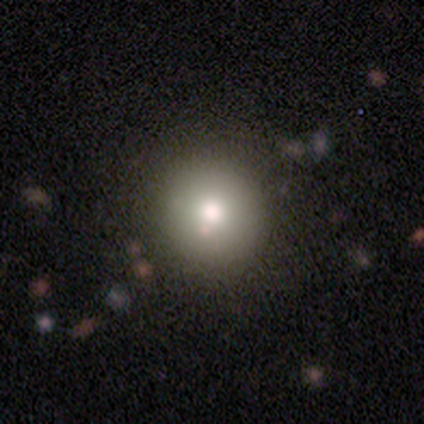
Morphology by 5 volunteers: This is likely a smooth galaxy (60%). How rounded: clearly round (100%). Merging: likely merger (67%).